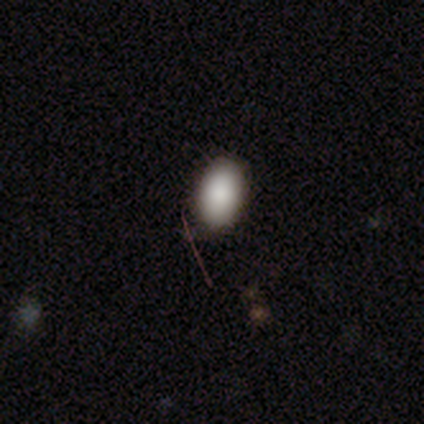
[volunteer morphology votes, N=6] Overall: smooth (83%). How rounded: in between (80%). Merging: none (80%).